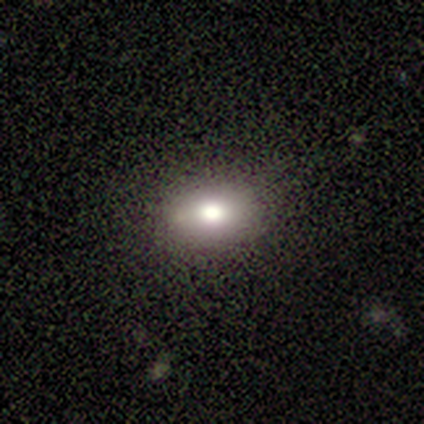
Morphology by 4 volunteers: Smooth or featured: smooth — 50% (tied with star or artifact — 50%)
How rounded: round — 50% (tied with in between — 50%)
Merging: none — 100%